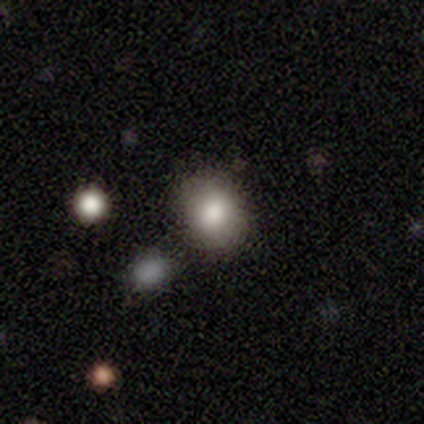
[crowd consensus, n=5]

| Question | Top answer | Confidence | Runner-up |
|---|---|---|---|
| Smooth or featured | smooth | 80% | star or artifact (20%) |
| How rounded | round | 50% | tied: in between (50%) |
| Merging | none | 50% | minor disturbance (25%) |